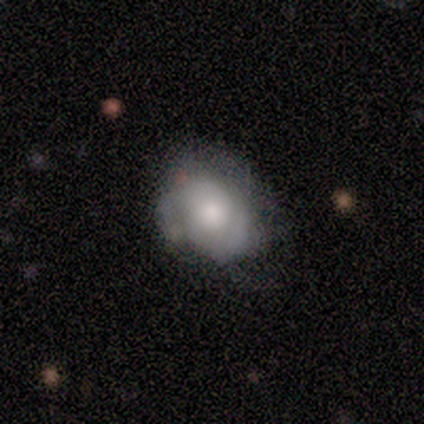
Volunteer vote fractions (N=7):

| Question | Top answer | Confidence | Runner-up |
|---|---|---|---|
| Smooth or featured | featured or disk | 57% | smooth (43%) |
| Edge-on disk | no | 75% | yes (25%) |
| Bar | no | 100% | — |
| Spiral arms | yes | 67% | no (33%) |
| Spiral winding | medium | 100% | — |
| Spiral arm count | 2 | 100% | — |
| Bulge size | large | 33% | tied: moderate (33%), small (33%) |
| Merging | none | 43% | tied: minor disturbance (43%) |